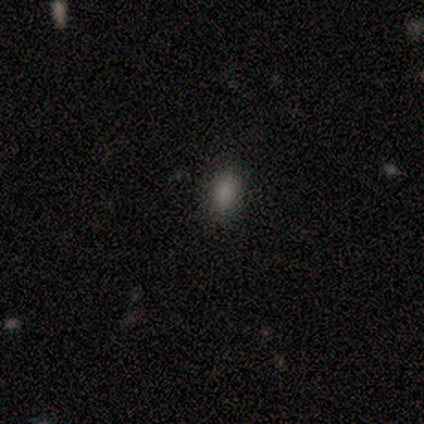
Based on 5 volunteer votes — Q: Smooth or featured?
A: smooth (100%)
Q: How rounded?
A: in between (80%); runner-up: cigar-shaped (20%)
Q: Merging?
A: none (60%); runner-up: minor disturbance (40%)